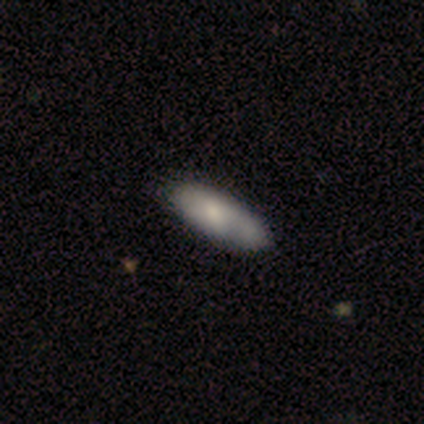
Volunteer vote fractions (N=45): Overall: smooth (69%). How rounded: in between (84%). Merging: none (66%; minor disturbance 27%).